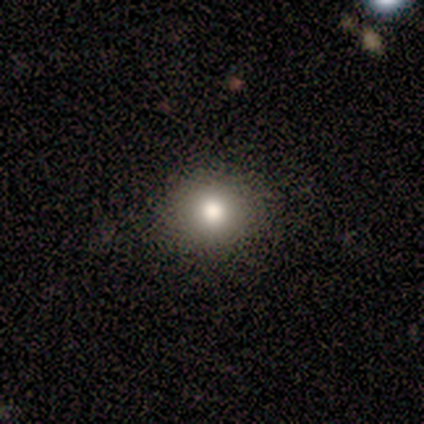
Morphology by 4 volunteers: smooth-or-featured: smooth: 50% (tied) | star or artifact: 50% (tied) | featured or disk: 0%
  how-rounded: round: 50% (tied) | in between: 50% (tied) | cigar-shaped: 0%
  merging: none: 100% | minor disturbance: 0% | major disturbance: 0% | merger: 0%